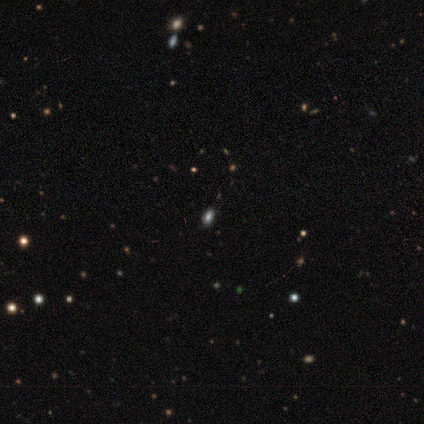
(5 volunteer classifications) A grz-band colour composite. It shows a smooth galaxy with no disk features (60%) that is in between round and cigar-shaped (67%). Merging: none (100%).